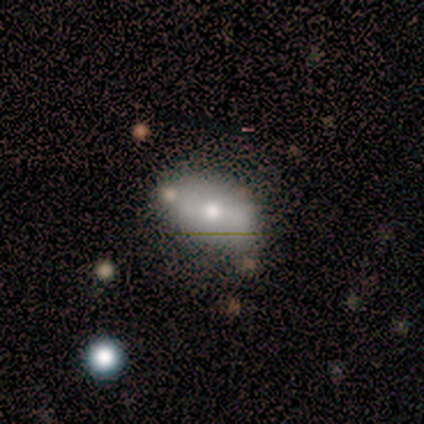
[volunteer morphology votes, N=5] Volunteers were most divided on "bar" (2-way tie): weak: 50%, no: 50%, strong: 0%; "spiral arms" (2-way tie): yes: 50%, no: 50%; "bulge size" (2-way tie): moderate: 50%, small: 50%, dominant: 0%, large: 0%, none: 0%. More confident: spiral winding — tight (100%); spiral arm count — 3 (100%); edge-on disk — no (67%); smooth or featured — featured or disk (60%); merging — none (60%).